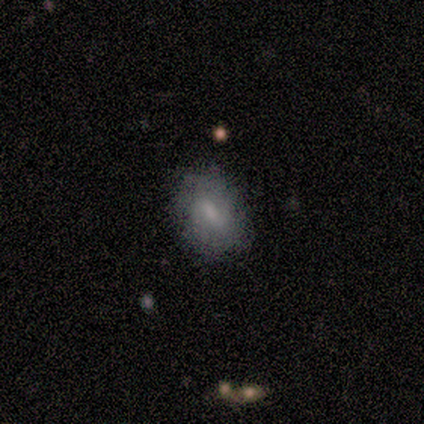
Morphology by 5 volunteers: This is likely a smooth galaxy (60%). How rounded: likely in between (67%). Merging: likely none (75%).